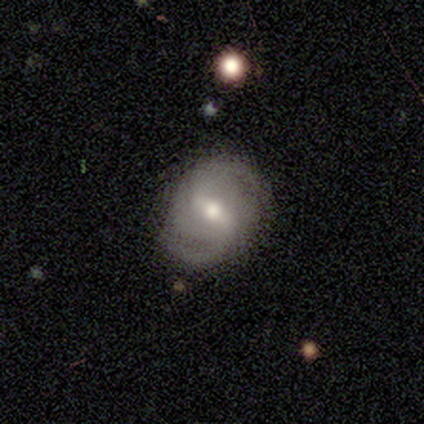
A smooth galaxy with no disk features (60%) that is round (67%).

Vote fractions:
- Smooth or featured? smooth: 60% / featured or disk: 40% / star or artifact: 0%
- How rounded? round: 67% / in between: 33% / cigar-shaped: 0%
- Merging? none: 60% / minor disturbance: 20% / major disturbance: 20% / merger: 0%